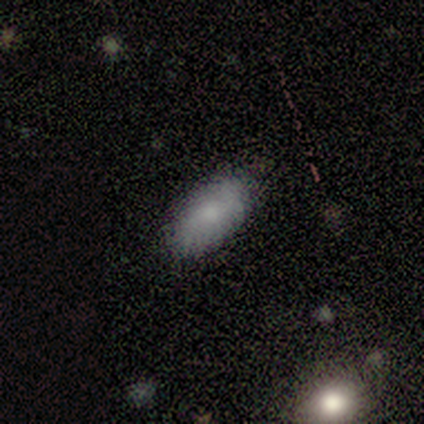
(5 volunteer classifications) Smooth or featured? smooth (80%)
How rounded? in between (100%)
Merging? none (100%)